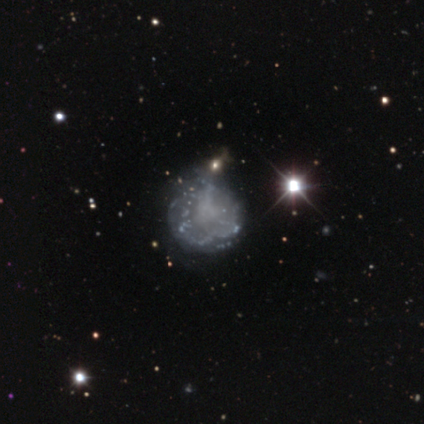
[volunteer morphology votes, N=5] This appears to be a featured or disk galaxy (60%) with no bar (100%), no spiral arms (100%) and no central bulge (100%). Merging: none (67%).